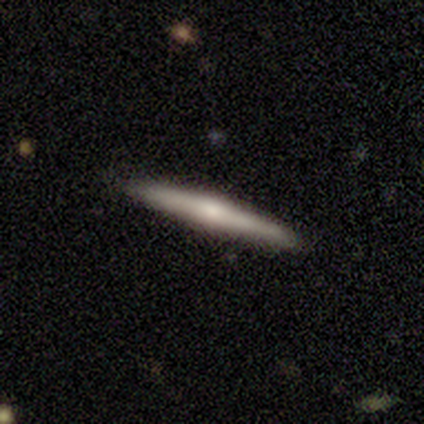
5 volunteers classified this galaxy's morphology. This appears to be a smooth galaxy with no disk features (40%, tied with featured or disk) that is cigar-shaped (100%). Merging: none (100%).